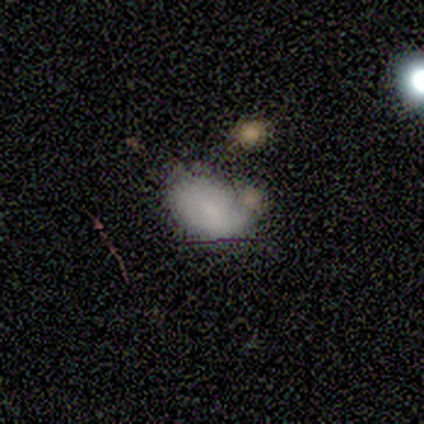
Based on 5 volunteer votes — This appears to be a smooth galaxy with no disk features (60%) that is in between round and cigar-shaped (100%). Merging: none (40%, tied with minor disturbance).